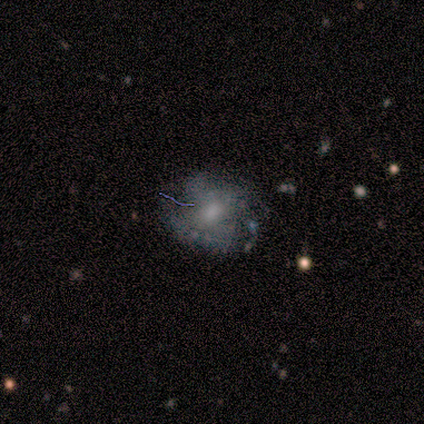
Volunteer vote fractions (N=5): Smooth or featured? smooth (60%)
How rounded? in between (67%)
Merging? none (60%)